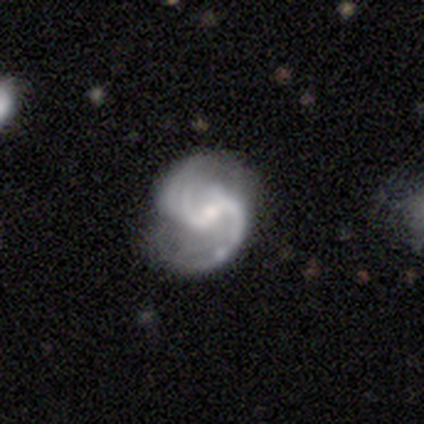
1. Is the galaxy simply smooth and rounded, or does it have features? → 100% featured or disk, 0% smooth, 0% star or artifact.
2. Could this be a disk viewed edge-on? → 100% no, 0% yes.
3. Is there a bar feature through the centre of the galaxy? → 100% weak, 0% strong, 0% no.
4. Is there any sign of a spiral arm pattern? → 100% yes, 0% no.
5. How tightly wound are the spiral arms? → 83% medium, 17% tight, 0% loose.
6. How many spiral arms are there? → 67% 2, 33% 3, 0% 1, 0% 4, 0% more than 4, 0% can't tell.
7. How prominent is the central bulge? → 67% small, 17% moderate, 17% none, 0% dominant, 0% large.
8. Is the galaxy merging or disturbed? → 83% none, 17% major disturbance, 0% minor disturbance, 0% merger.